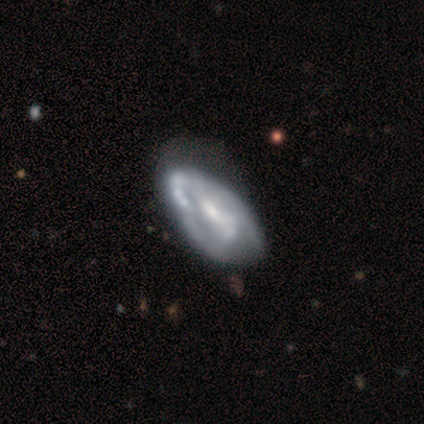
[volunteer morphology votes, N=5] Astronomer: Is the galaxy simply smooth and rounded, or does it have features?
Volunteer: featured or disk — 80%.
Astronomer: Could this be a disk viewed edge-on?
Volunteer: no — 100%.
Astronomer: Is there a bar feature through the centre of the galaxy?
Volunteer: no — 50%.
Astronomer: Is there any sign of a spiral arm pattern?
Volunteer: no — 75%.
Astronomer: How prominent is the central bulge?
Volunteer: moderate — 75%.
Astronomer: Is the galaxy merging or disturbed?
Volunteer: none — 25%, tied with minor disturbance, major disturbance and merger at 25%.